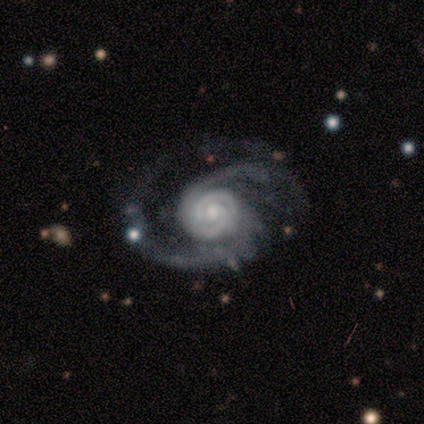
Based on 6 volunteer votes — Q: Smooth or featured?
A: featured or disk (100%)
Q: Edge-on disk?
A: no (100%)
Q: Bar?
A: weak (50%); tied with: no (50%)
Q: Spiral arms?
A: yes (100%)
Q: Spiral winding?
A: tight (50%); runner-up: loose (33%)
Q: Spiral arm count?
A: 2 (67%); runner-up: 3 (17%)
Q: Bulge size?
A: small (67%); runner-up: moderate (33%)
Q: Merging?
A: major disturbance (50%); runner-up: minor disturbance (33%)